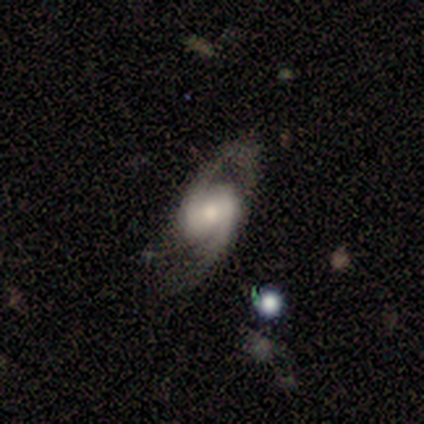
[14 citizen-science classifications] Volunteers were most divided on "spiral winding": medium: 45%, loose: 36%, tight: 18%. More confident: smooth or featured — featured or disk (100%); spiral arm count — 2 (100%); spiral arms — yes (92%); edge-on disk — no (86%); merging — none (79%); bar — weak (58%); bulge size — small (50%).